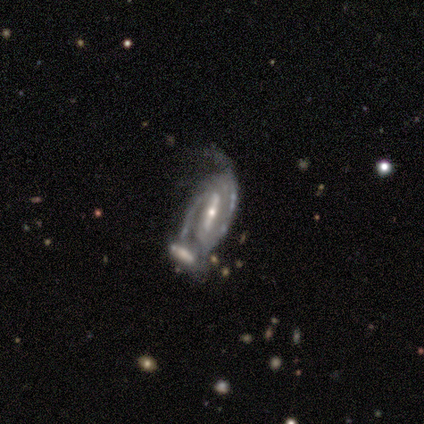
smooth-or-featured: featured or disk: 100% | smooth: 0% | star or artifact: 0%
  disk-edge-on: no: 100% | yes: 0%
    bar: strong: 100% | weak: 0% | no: 0%
    has-spiral-arms: yes: 100% | no: 0%
      spiral-winding: tight: 40% (tied) | medium: 40% (tied) | loose: 20%
      spiral-arm-count: 2: 40% (tied) | can't tell: 40% (tied) | 4: 20% | 1: 0% | 3: 0% | more than 4: 0%
    bulge-size: moderate: 60% | small: 40% | dominant: 0% | large: 0% | none: 0%
  merging: merger: 80% | minor disturbance: 20% | none: 0% | major disturbance: 0%